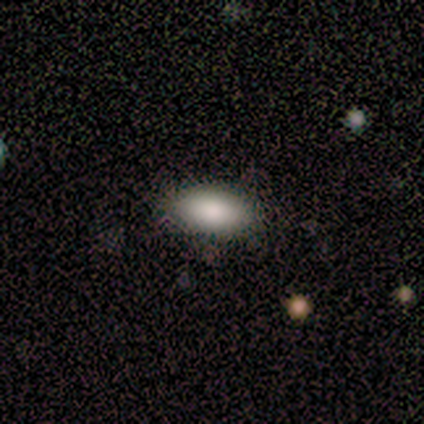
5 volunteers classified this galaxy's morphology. smooth-or-featured: smooth: 60% | featured or disk: 20% | star or artifact: 20%
  how-rounded: in between: 100% | round: 0% | cigar-shaped: 0%
  merging: none: 100% | minor disturbance: 0% | major disturbance: 0% | merger: 0%